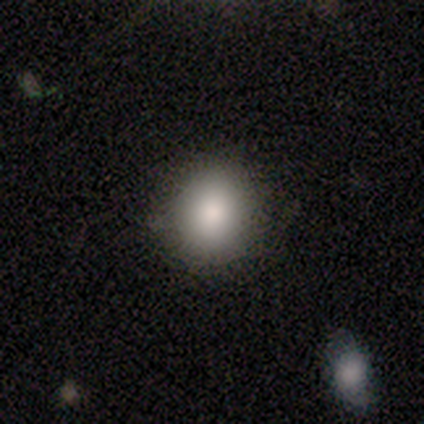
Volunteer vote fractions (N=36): smooth_or_featured: smooth (p=0.83) [alt: featured or disk p=0.08]
how_rounded: round (p=0.77) [alt: in between p=0.23]
merging: none (p=0.88) [alt: minor disturbance p=0.09]